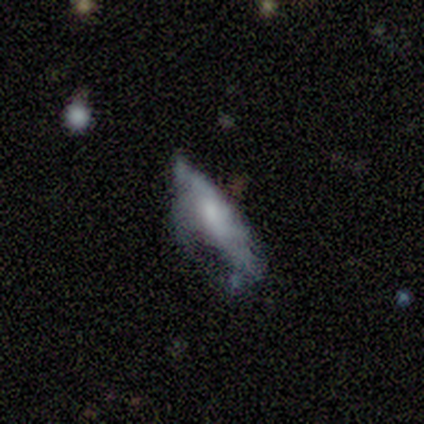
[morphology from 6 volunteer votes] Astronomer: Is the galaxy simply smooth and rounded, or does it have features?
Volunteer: featured or disk — 83%.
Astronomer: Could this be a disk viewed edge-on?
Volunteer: no — 100%.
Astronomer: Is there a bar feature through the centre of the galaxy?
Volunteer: no — 80%.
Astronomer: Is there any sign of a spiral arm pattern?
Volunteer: no — 60% (runner-up: yes, 40%).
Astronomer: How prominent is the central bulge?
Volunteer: moderate — 60%.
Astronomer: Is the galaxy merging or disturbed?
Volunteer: minor disturbance — 50% (runner-up: major disturbance, 33%).